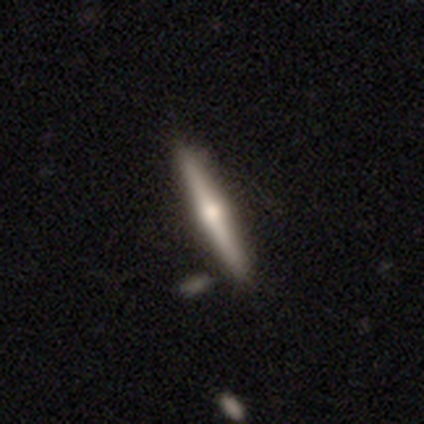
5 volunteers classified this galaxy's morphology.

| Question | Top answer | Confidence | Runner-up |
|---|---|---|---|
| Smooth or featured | featured or disk | 60% | smooth (40%) |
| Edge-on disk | yes | 100% | — |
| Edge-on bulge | rounded | 100% | — |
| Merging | none | 80% | merger (20%) |